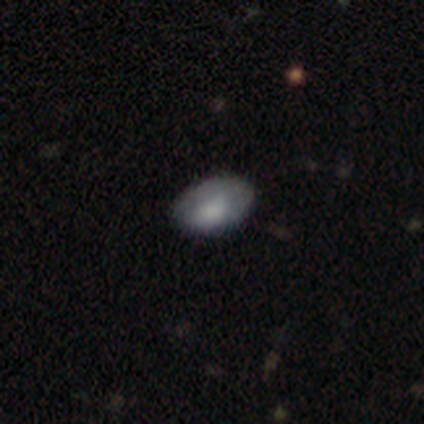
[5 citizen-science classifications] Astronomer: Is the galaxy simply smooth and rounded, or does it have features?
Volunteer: smooth — 100%.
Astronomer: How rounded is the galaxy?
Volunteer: in between — 100%.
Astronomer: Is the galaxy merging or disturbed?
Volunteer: none — 100%.